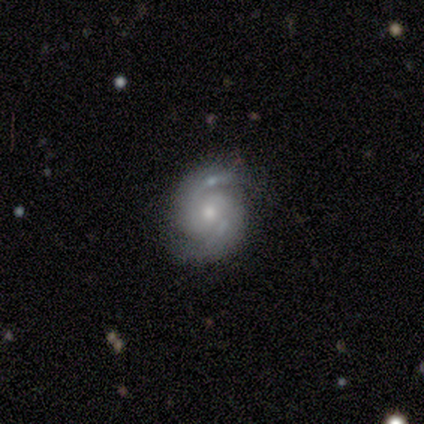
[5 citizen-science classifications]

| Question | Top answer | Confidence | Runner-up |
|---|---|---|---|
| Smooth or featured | featured or disk | 80% | star or artifact (20%) |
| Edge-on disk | no | 100% | — |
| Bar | no | 100% | — |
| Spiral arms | yes | 100% | — |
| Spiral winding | medium | 75% | loose (25%) |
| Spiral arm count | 2 | 100% | — |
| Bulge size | moderate | 50% | tied: small (50%) |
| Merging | none | 50% | minor disturbance (25%) |